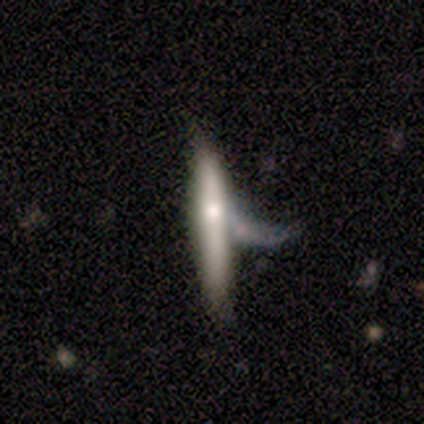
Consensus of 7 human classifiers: Smooth or featured: smooth — 71% (featured or disk — 29%)
How rounded: cigar-shaped — 100%
Merging: major disturbance — 57% (none — 14%)